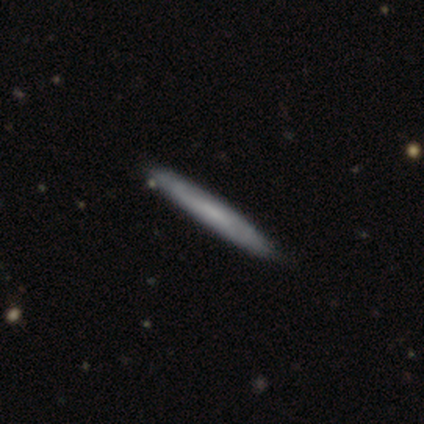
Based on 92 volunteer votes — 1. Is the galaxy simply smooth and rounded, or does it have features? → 59% smooth, 37% featured or disk, 4% star or artifact.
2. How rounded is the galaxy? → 98% cigar-shaped, 2% round, 0% in between.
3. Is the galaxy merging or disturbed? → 85% none, 11% minor disturbance, 2% merger, 1% major disturbance.